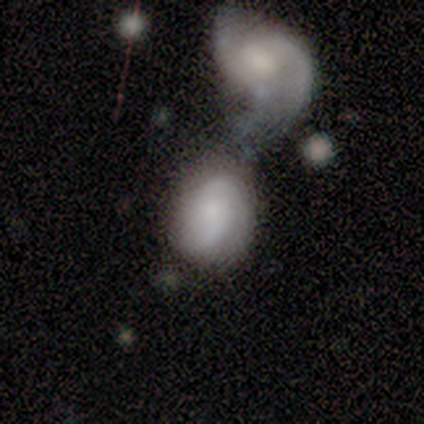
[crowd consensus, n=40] This appears to be a featured or disk galaxy (65%) with no bar (88%), 2 (56%) medium (56%) spiral arms (69%) and a moderate central bulge (38%). Merging: merger (63%).